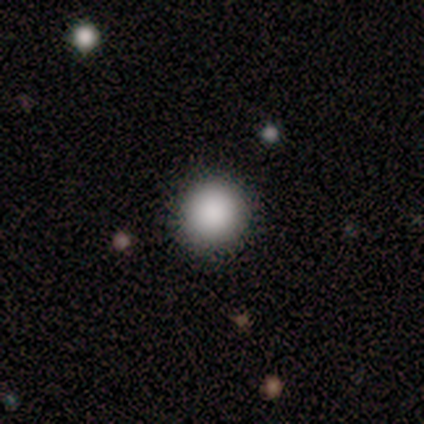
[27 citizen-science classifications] A smooth galaxy with no disk features (81%) that is round (95%).

Vote fractions:
- Smooth or featured? smooth: 81% / star or artifact: 15% / featured or disk: 4%
- How rounded? round: 95% / in between: 5% / cigar-shaped: 0%
- Merging? none: 100% / minor disturbance: 0% / major disturbance: 0% / merger: 0%